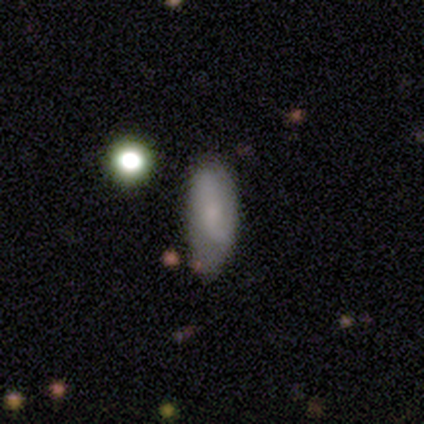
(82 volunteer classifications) A smooth galaxy with no disk features (50%) that is in between round and cigar-shaped (68%).

Vote fractions:
- Smooth or featured? smooth: 50% / featured or disk: 40% / star or artifact: 10%
- How rounded? in between: 68% / cigar-shaped: 27% / round: 5%
- Merging? none: 45% / minor disturbance: 43% / major disturbance: 11% / merger: 1%